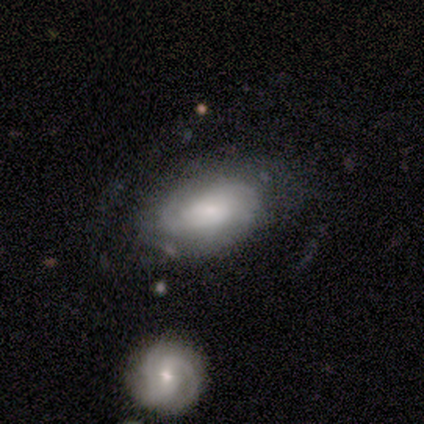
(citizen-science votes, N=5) This appears to be a featured or disk galaxy (60%) with no bar (67%), 2 (50%, tied with can't tell) tight (50%, tied with medium) spiral arms (67%) and a small central bulge (67%). Merging: none (80%).